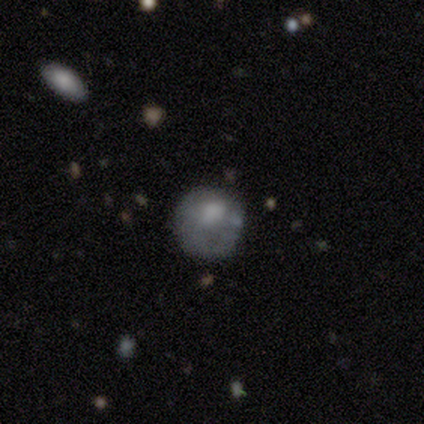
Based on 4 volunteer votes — Smooth or featured? smooth (50%)
How rounded? round (50%, tied with in between)
Merging? minor disturbance (67%)